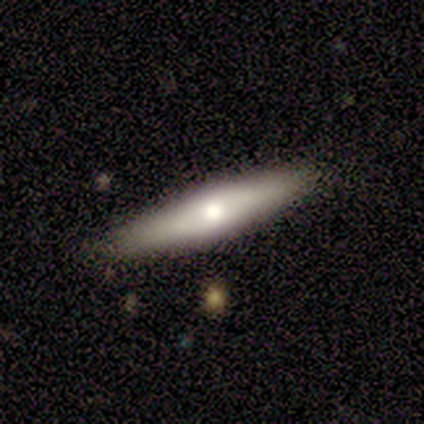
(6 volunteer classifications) Smooth or featured? featured or disk (67%)
Edge-on disk? yes (75%)
Edge-on bulge? rounded (100%)
Merging? none (100%)